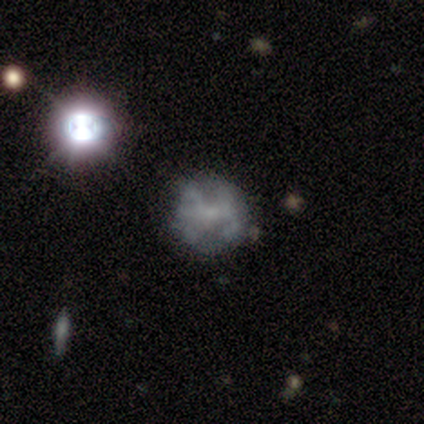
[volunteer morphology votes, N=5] featured or disk 60%, smooth 20%, star or artifact 20%. Down the decision tree: edge-on disk — no (100%); bar — weak (67%); spiral arms — no (100%); bulge size — none (67%); merging — none (100%).